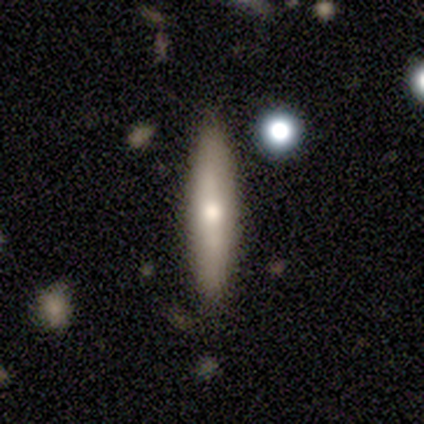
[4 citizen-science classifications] smooth_or_featured: smooth (p=0.50) [tied with: featured or disk p=0.50]
how_rounded: in between (p=0.50) [tied with: cigar-shaped p=0.50]
merging: none (p=1.00)